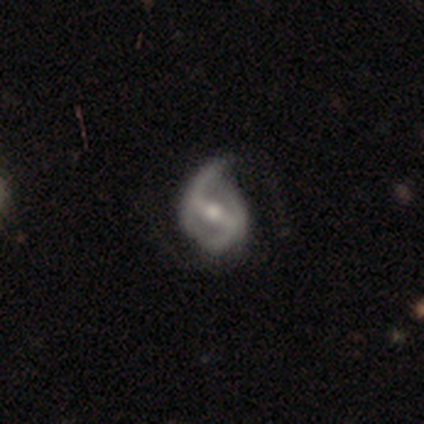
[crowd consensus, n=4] Smooth or featured?
  - featured or disk: 100% *
  - smooth: 0%
  - star or artifact: 0%
Edge-on disk?
  - no: 100% *
  - yes: 0%
Bar?
  - strong: 75% *
  - weak: 25%
  - no: 0%
Spiral arms?
  - yes: 100% *
  - no: 0%
Spiral winding?
  - tight: 75% *
  - medium: 25%
  - loose: 0%
Spiral arm count?
  - 2: 75% *
  - can't tell: 25%
  - 1: 0%
  - 3: 0%
  - 4: 0%
  - more than 4: 0%
Bulge size?
  - moderate: 100% *
  - dominant: 0%
  - large: 0%
  - small: 0%
  - none: 0%
Merging?
  - none: 50% * (tied)
  - minor disturbance: 50% * (tied)
  - major disturbance: 0%
  - merger: 0%